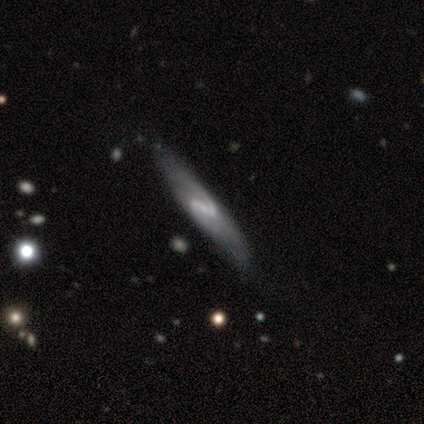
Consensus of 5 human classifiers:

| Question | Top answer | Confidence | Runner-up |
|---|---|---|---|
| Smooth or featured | featured or disk | 100% | — |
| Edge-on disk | no | 60% | yes (40%) |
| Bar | strong | 33% | tied: weak (33%), no (33%) |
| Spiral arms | yes | 100% | — |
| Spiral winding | tight | 33% | tied: medium (33%), loose (33%) |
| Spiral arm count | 2 | 100% | — |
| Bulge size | small | 67% | none (33%) |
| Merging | none | 80% | minor disturbance (20%) |